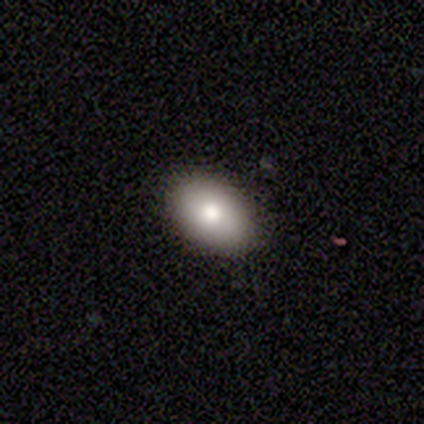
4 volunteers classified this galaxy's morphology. smooth-or-featured: smooth: 100% | featured or disk: 0% | star or artifact: 0%
  how-rounded: in between: 75% | cigar-shaped: 25% | round: 0%
  merging: none: 75% | minor disturbance: 25% | major disturbance: 0% | merger: 0%